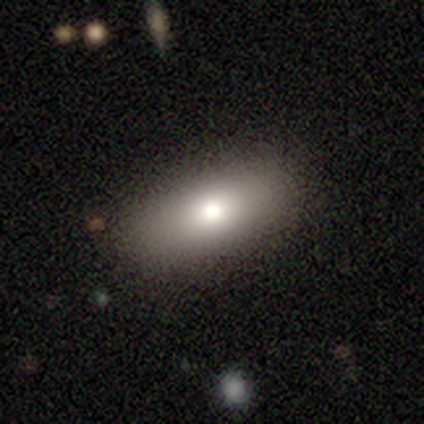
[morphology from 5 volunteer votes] This is likely a smooth galaxy (60%). How rounded: likely cigar-shaped (67%). Merging: likely none (75%).